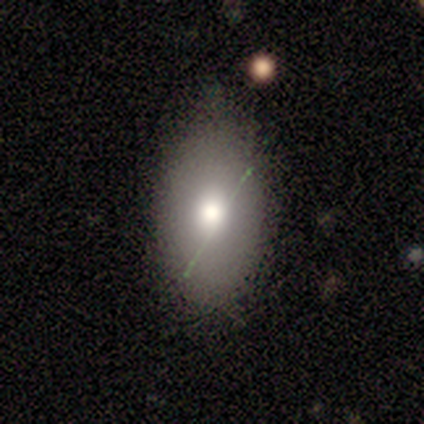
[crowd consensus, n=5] This is clearly a smooth galaxy (80%). How rounded: likely in between (75%). Merging: likely none (60%).